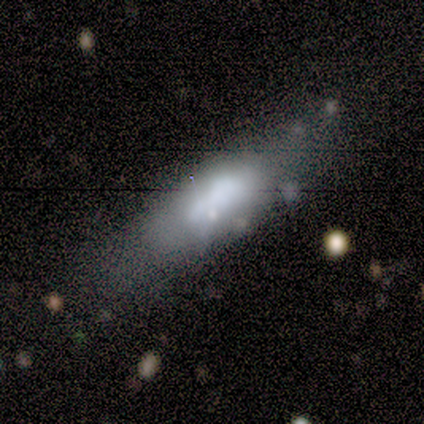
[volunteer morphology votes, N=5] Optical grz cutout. It shows a smooth galaxy with no disk features (40%, tied with featured or disk) that is in between round and cigar-shaped (50%, tied with cigar-shaped). Merging: none (50%, tied with minor disturbance).